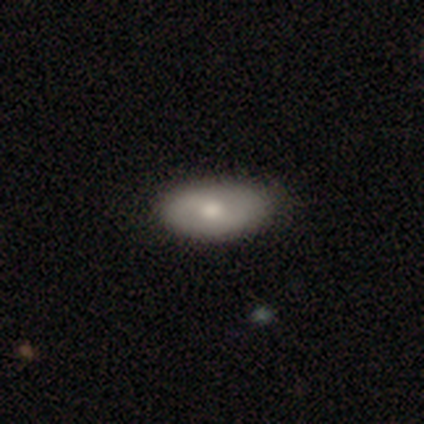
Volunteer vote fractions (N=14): A smooth galaxy with no disk features (57%) that is in between round and cigar-shaped (88%).

Vote fractions:
- Smooth or featured? smooth: 57% / featured or disk: 43% / star or artifact: 0%
- How rounded? in between: 88% / round: 12% / cigar-shaped: 0%
- Merging? none: 86% / minor disturbance: 7% / major disturbance: 7% / merger: 0%